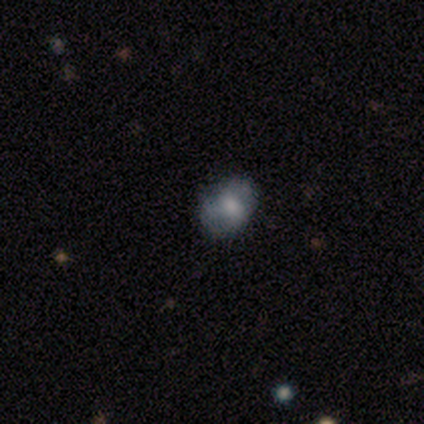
Volunteers were most divided on "smooth or featured": smooth: 44%, featured or disk: 42%, star or artifact: 13%. More confident: how rounded — in between (80%); merging — none (74%).